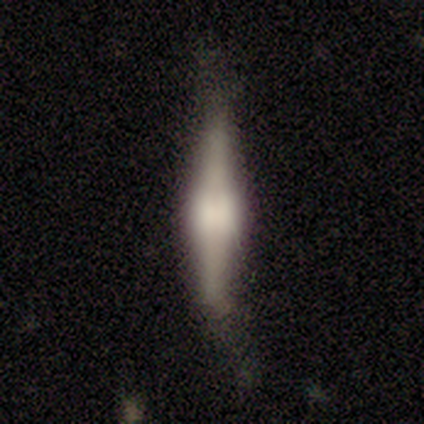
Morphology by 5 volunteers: This appears to be a featured or disk galaxy (60%) viewed edge-on (100%) with a rounded central bulge (67%). Merging: minor disturbance (75%).